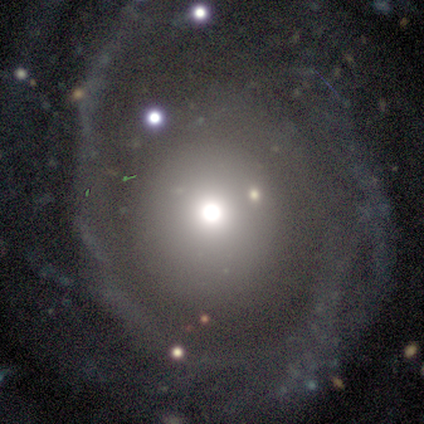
A featured or disk galaxy (75%) with no bar (100%), 2 (50%, tied with can't tell) tight (50%, tied with loose) spiral arms (67%) and a small central bulge (67%). Merging: none (100%).